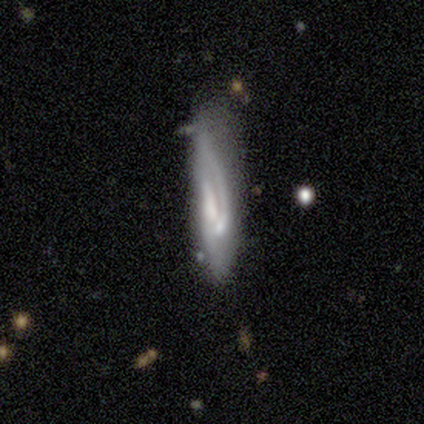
Volunteers were most divided on "spiral winding" (2-way tie): medium: 50%, loose: 50%, tight: 0%; "spiral arm count" (2-way tie): 1: 50%, can't tell: 50%, 2: 0%, 3: 0%, 4: 0%, more than 4: 0%; "bulge size" (3-way tie): large: 33%, small: 33%, none: 33%, dominant: 0%, moderate: 0%; "merging" (2-way tie): none: 40%, minor disturbance: 40%, merger: 20%, major disturbance: 0%. More confident: smooth or featured — featured or disk (100%); bar — weak (67%); spiral arms — yes (67%); edge-on disk — no (60%).